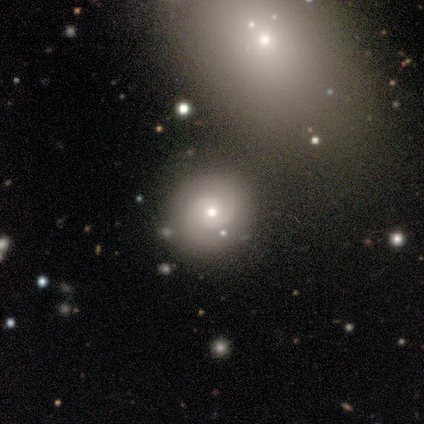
Smooth or featured? 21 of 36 (58%) said featured or disk. Edge-on disk? 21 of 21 (100%) said no. Bar? 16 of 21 (76%) said no. Spiral arms? 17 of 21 (81%) said yes. Spiral winding? 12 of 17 (71%) said tight. Spiral arm count? 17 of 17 (100%) said 2. Bulge size? 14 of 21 (67%) said moderate. Merging? 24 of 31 (77%) said none.